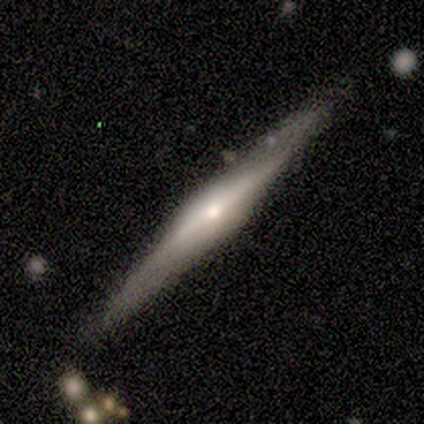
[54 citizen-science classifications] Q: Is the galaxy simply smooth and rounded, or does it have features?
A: featured or disk — 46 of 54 (85%).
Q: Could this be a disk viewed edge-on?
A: yes — 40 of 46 (87%).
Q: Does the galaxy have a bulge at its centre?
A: rounded — 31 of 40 (78%).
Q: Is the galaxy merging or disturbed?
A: none — 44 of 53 (83%).